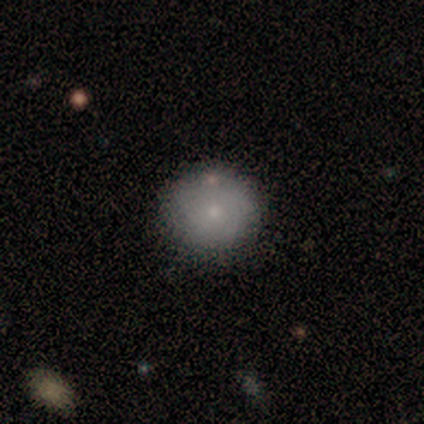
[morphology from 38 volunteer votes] Overall: smooth (74%). How rounded: round (96%). Merging: none (94%).